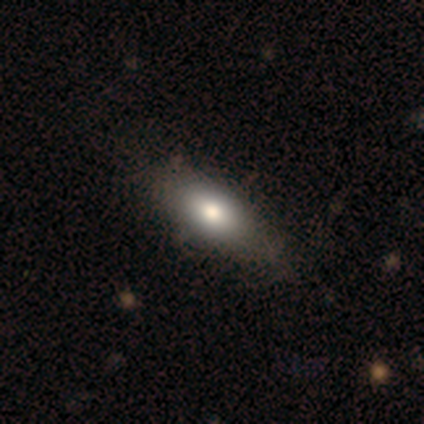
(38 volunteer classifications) This is clearly a smooth galaxy (82%). How rounded: clearly in between (84%). Merging: possibly none (54%).